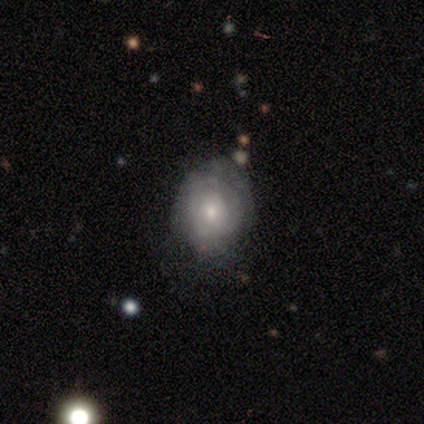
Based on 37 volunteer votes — smooth_or_featured: featured or disk (p=0.57) [alt: smooth p=0.38]
disk_edge_on: no (p=1.00)
bar: no (p=0.76) [alt: weak p=0.24]
has_spiral_arms: yes (p=0.67) [alt: no p=0.33]
spiral_winding: tight (p=0.86) [alt: medium p=0.14]
spiral_arm_count: can't tell (p=0.57) [alt: 2 p=0.29]
bulge_size: small (p=0.48) [alt: moderate p=0.43]
merging: none (p=0.66) [alt: minor disturbance p=0.17]